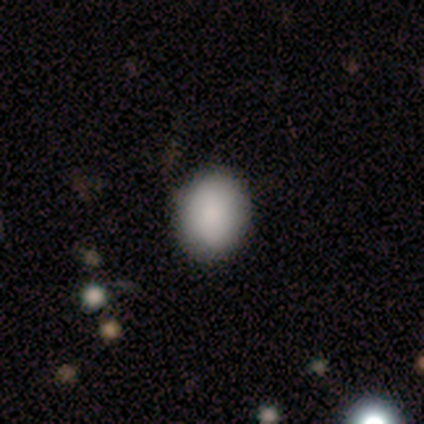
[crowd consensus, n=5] Smooth or featured?
  - smooth: 80% *
  - star or artifact: 20%
  - featured or disk: 0%
How rounded?
  - round: 50% * (tied)
  - in between: 50% * (tied)
  - cigar-shaped: 0%
Merging?
  - none: 100% *
  - minor disturbance: 0%
  - major disturbance: 0%
  - merger: 0%